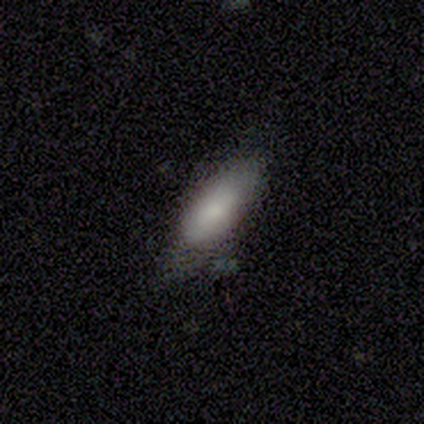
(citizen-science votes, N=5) A smooth galaxy with no disk features (80%) that is in between round and cigar-shaped (50%, tied with cigar-shaped).

Vote fractions:
- Smooth or featured? smooth: 80% / star or artifact: 20% / featured or disk: 0%
- How rounded? in between: 50% (tied) / cigar-shaped: 50% (tied) / round: 0%
- Merging? none: 100% / minor disturbance: 0% / major disturbance: 0% / merger: 0%